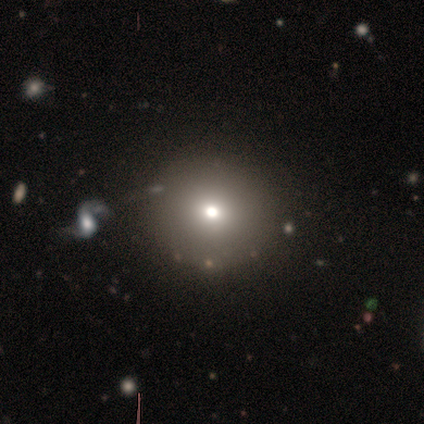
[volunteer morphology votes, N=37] Smooth or featured? smooth (62%)
How rounded? round (96%)
Merging? none (86%)